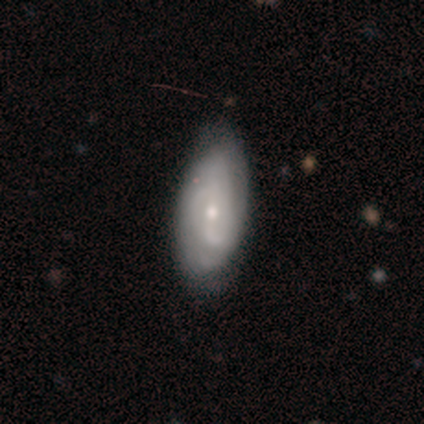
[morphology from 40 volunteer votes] Overall: featured or disk (70%). Edge-on disk: no (89%). Bar: no (52%; weak 28%). Spiral arms: yes (88%). Spiral arm count: 2 (50%; can't tell 41%). Spiral winding: tight (41%; medium 36%). Bulge size: small (56%; moderate 40%). Merging: none (44%; minor disturbance 26%).